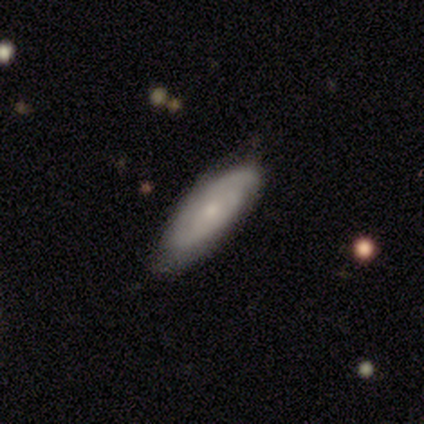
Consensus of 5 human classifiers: Overall: smooth (60%; featured or disk 40%). How rounded: in between (100%). Merging: none (100%).